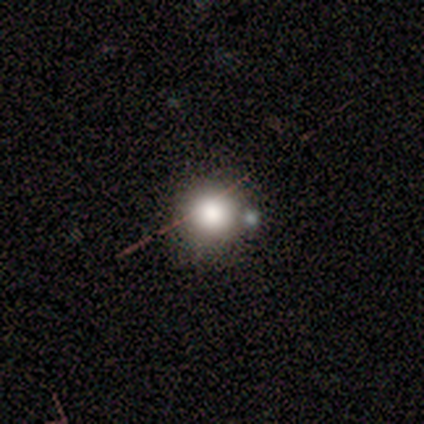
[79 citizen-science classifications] This is likely a smooth galaxy (77%). How rounded: clearly round (93%). Merging: marginally none (39%).